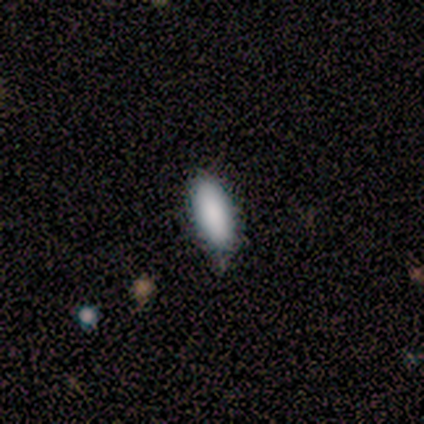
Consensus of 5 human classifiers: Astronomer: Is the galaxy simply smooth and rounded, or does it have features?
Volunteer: smooth — 100%.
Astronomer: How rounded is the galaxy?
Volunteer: round — 40%, tied with in between at 40%.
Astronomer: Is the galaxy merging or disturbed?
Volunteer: none — 60% (runner-up: minor disturbance, 40%).